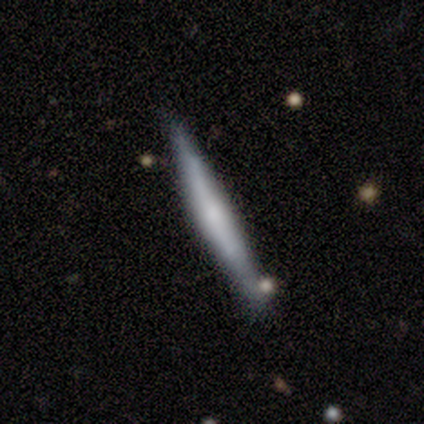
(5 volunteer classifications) smooth-or-featured: smooth: 60% | featured or disk: 40% | star or artifact: 0%
  how-rounded: cigar-shaped: 100% | round: 0% | in between: 0%
  merging: minor disturbance: 80% | none: 20% | major disturbance: 0% | merger: 0%